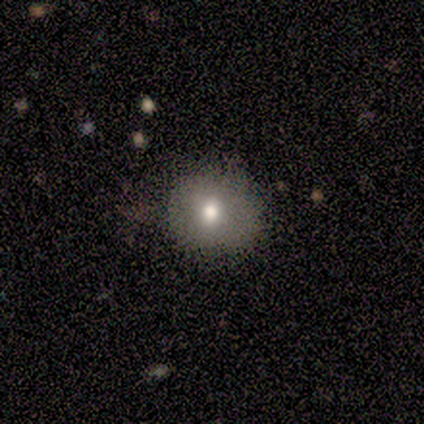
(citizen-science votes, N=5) smooth 80%, star or artifact 20%, featured or disk 0%. Down the decision tree: how rounded — round (100%); merging — none (100%).